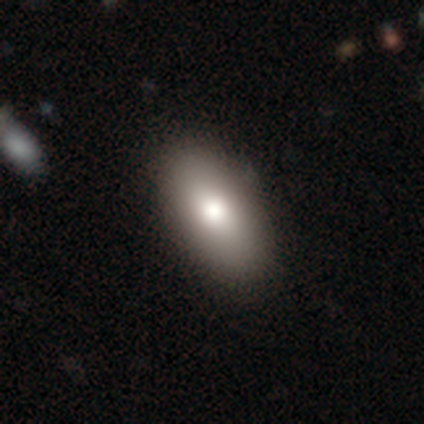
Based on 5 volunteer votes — Smooth or featured? 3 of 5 (60%) said smooth. How rounded? 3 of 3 (100%) said in between. Merging? 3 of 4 (75%) said none.